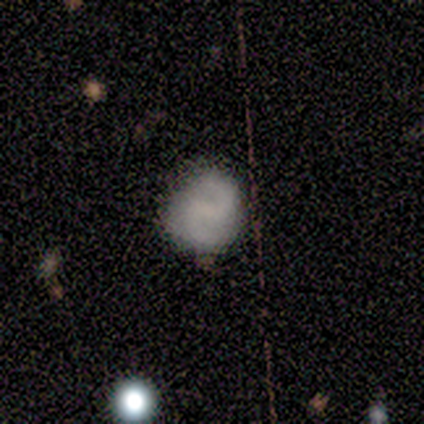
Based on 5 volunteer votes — Smooth or featured?
  - featured or disk: 60% *
  - smooth: 40%
  - star or artifact: 0%
Edge-on disk?
  - no: 100% *
  - yes: 0%
Bar?
  - weak: 100% *
  - strong: 0%
  - no: 0%
Spiral arms?
  - yes: 100% *
  - no: 0%
Spiral winding?
  - medium: 67% *
  - loose: 33%
  - tight: 0%
Spiral arm count?
  - 2: 100% *
  - 1: 0%
  - 3: 0%
  - 4: 0%
  - more than 4: 0%
  - can't tell: 0%
Bulge size?
  - none: 67% *
  - moderate: 33%
  - dominant: 0%
  - large: 0%
  - small: 0%
Merging?
  - none: 100% *
  - minor disturbance: 0%
  - major disturbance: 0%
  - merger: 0%